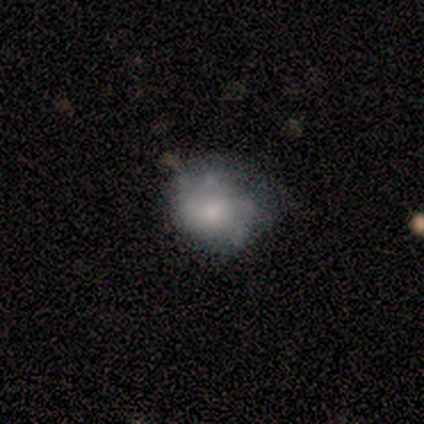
smooth-or-featured: smooth: 60% | featured or disk: 20% | star or artifact: 20%
  how-rounded: in between: 67% | round: 33% | cigar-shaped: 0%
  merging: minor disturbance: 75% | none: 25% | major disturbance: 0% | merger: 0%